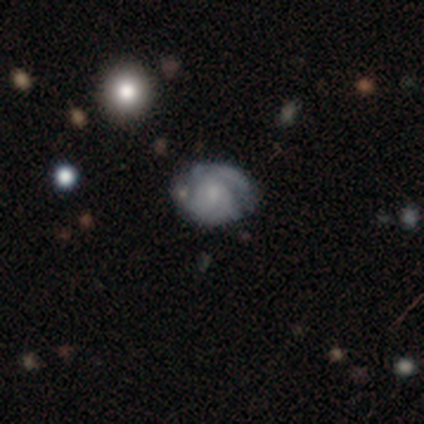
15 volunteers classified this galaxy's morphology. Smooth or featured: featured or disk — 73% (smooth — 27%)
Edge-on disk: no — 100%
Bar: no — 73% (weak — 18%)
Spiral arms: yes — 82% (no — 18%)
Spiral winding: tight — 44% (tied with medium — 44%)
Spiral arm count: 2 — 56% (can't tell — 33%)
Bulge size: small — 64% (moderate — 18%)
Merging: none — 60% (minor disturbance — 33%)